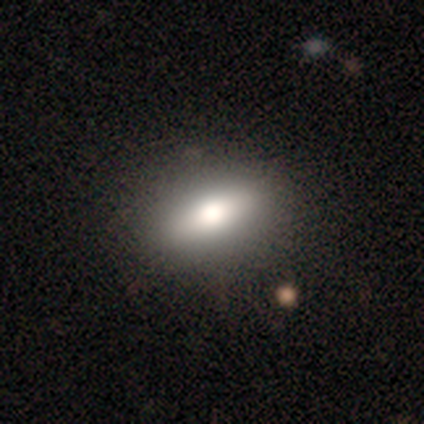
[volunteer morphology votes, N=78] Smooth or featured? smooth (68%)
How rounded? in between (79%)
Merging? none (52%)